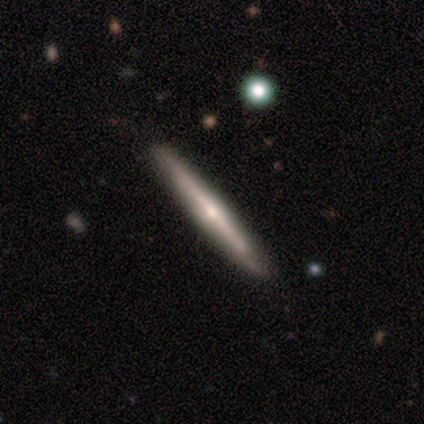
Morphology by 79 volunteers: This appears to be a featured or disk galaxy (70%) viewed edge-on (98%) with a rounded central bulge (81%). Merging: none (49%).